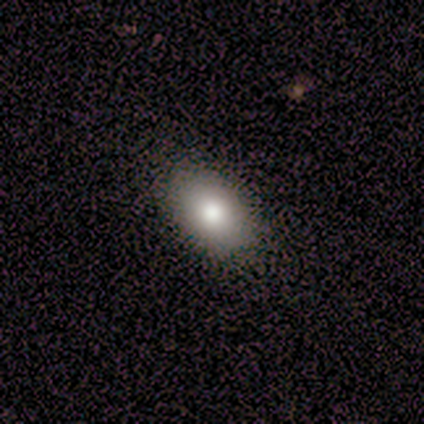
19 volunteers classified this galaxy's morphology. Smooth or featured?
  - smooth: 84% *
  - star or artifact: 11%
  - featured or disk: 5%
How rounded?
  - in between: 94% *
  - round: 6%
  - cigar-shaped: 0%
Merging?
  - none: 100% *
  - minor disturbance: 0%
  - major disturbance: 0%
  - merger: 0%